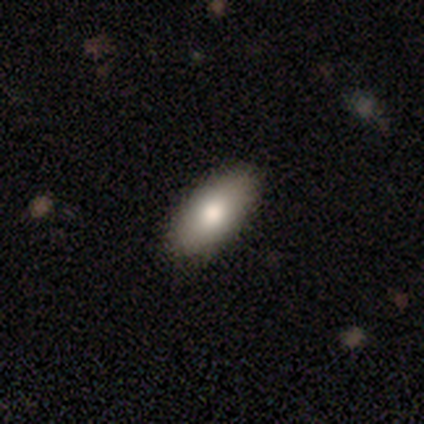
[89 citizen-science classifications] Smooth or featured? 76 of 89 (85%) said smooth. How rounded? 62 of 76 (82%) said in between. Merging? 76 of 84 (90%) said none.